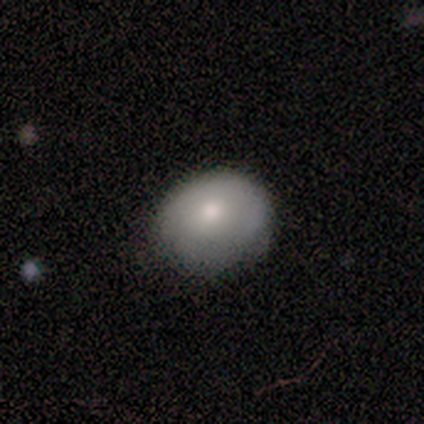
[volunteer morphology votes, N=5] This is clearly a smooth galaxy (80%). How rounded: likely round (75%). Merging: likely none (60%).